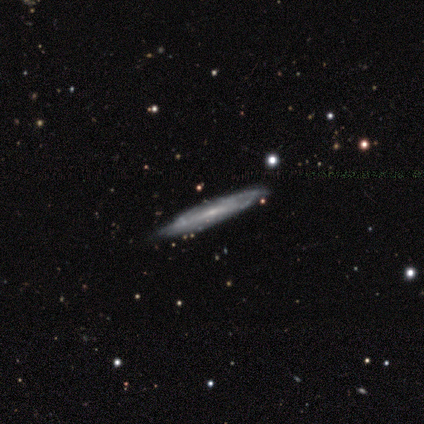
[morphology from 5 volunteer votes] Volunteers were most divided on "smooth or featured": smooth: 60%, featured or disk: 40%, star or artifact: 0%. More confident: how rounded — cigar-shaped (100%); merging — none (80%).